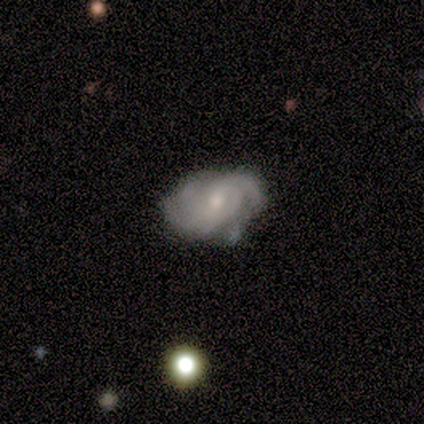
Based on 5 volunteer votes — Morphology: type=featured or disk (80%); edge-on=no (100%); bar=no (75%); spiral arms=yes (100%); winding=tight (75%); arm count=3 (50%); bulge=moderate (50%, tied with small); merging=minor disturbance (50%).